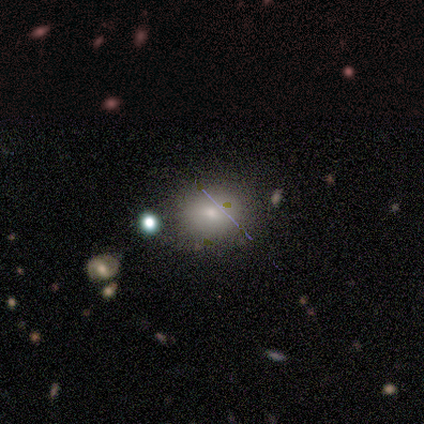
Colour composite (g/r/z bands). It shows a smooth galaxy with no disk features (60%) that is round (67%). Merging: none (100%).